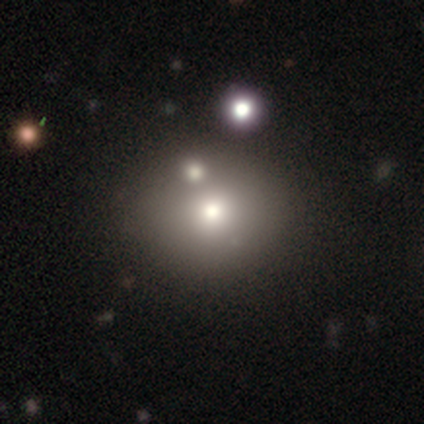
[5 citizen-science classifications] Smooth or featured? 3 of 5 (60%) said smooth. How rounded? 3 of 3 (100%) said round. Merging? 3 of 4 (75%) said none.